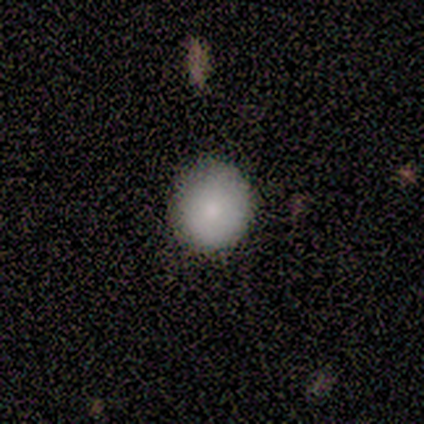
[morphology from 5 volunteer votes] Smooth or featured: smooth — 100%
How rounded: round — 100%
Merging: none — 100%